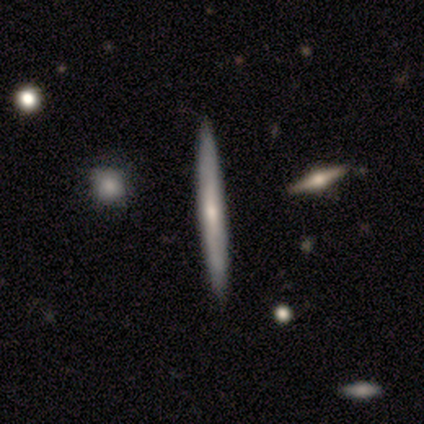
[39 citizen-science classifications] Q: Smooth or featured?
A: smooth (54%); runner-up: featured or disk (44%)
Q: How rounded?
A: cigar-shaped (100%)
Q: Merging?
A: none (89%); runner-up: minor disturbance (5%)